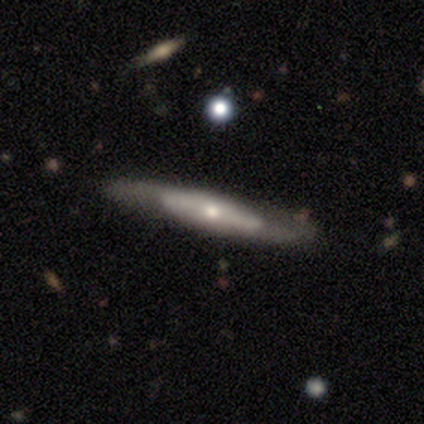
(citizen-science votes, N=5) Overall: featured or disk (60%; smooth 40%). Edge-on disk: yes (100%). Edge-on bulge: rounded (100%). Merging: none (80%).